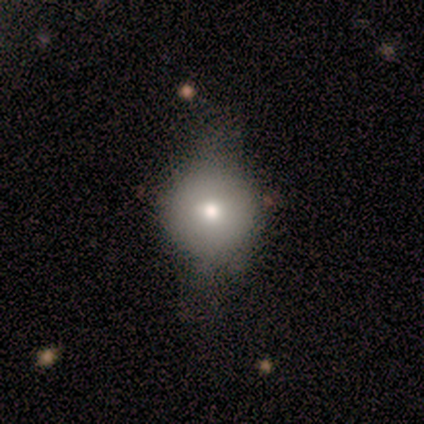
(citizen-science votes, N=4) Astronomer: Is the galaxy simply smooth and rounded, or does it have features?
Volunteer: featured or disk — 75%.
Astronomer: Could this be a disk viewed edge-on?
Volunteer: no — 67%.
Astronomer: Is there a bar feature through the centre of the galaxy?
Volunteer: weak — 50%, tied with no at 50%.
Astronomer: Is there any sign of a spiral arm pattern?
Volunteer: no — 100%.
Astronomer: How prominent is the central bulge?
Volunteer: moderate — 100%.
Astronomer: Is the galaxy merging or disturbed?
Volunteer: major disturbance — 50%.